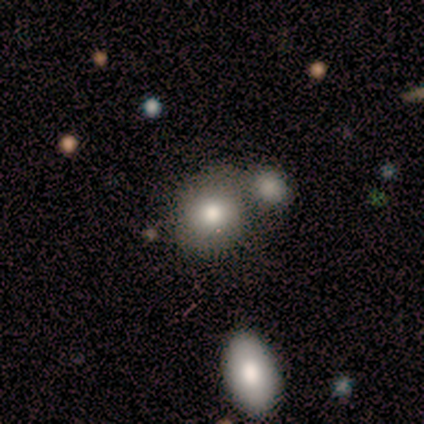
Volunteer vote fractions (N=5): Smooth or featured: smooth — 100%
How rounded: round — 80% (in between — 20%)
Merging: minor disturbance — 40% (tied with merger — 40%)